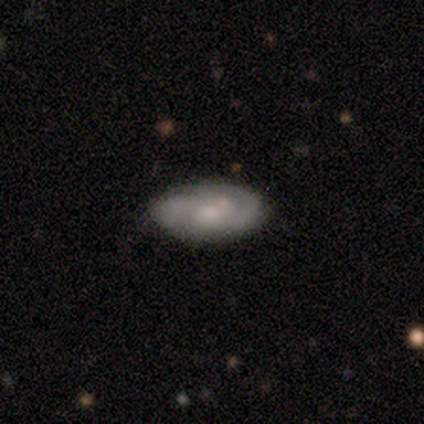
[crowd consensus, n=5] This is clearly a featured or disk galaxy (80%). It is clearly not viewed edge-on (100%). Bar: possibly weak (50%, tied with no). Spiral arm pattern: clearly yes (100%). Spiral arm count: possibly 2 (50%). Spiral winding: possibly tight (50%). Central bulge: likely small (75%). Merging: likely none (60%).